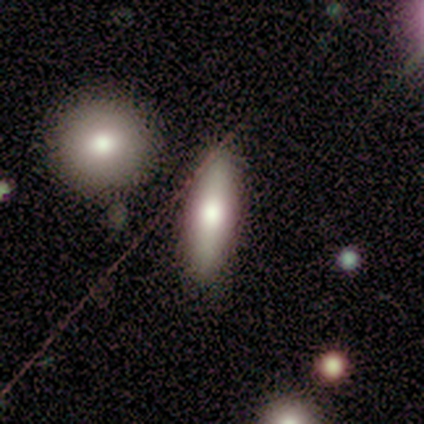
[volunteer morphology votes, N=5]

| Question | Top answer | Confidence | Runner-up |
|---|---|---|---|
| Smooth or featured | smooth | 60% | featured or disk (40%) |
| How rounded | cigar-shaped | 67% | in between (33%) |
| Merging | none | 80% | merger (20%) |